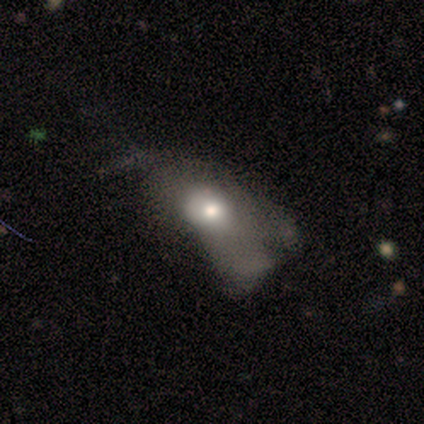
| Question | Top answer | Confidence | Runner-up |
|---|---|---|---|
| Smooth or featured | smooth | 40% | tied: featured or disk (40%) |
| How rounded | in between | 100% | — |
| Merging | major disturbance | 100% | — |